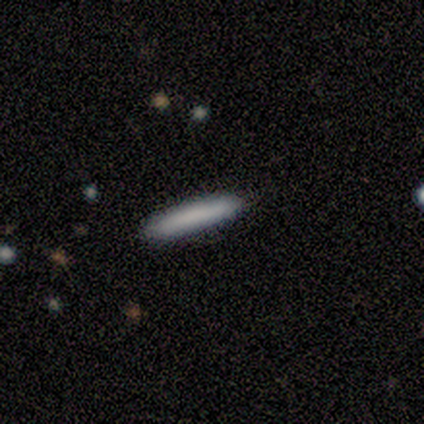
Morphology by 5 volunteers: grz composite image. It shows a smooth galaxy with no disk features (80%) that is cigar-shaped (100%). Merging: none (100%).